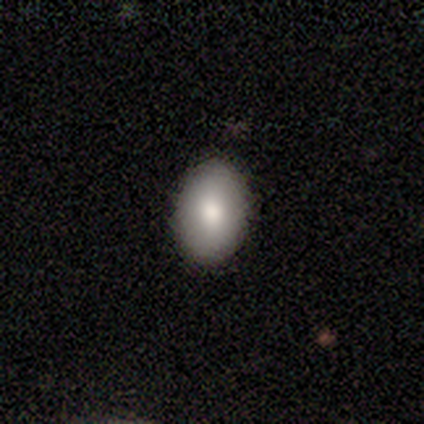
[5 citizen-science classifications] smooth_or_featured: smooth (p=1.00)
how_rounded: in between (p=1.00)
merging: none (p=1.00)